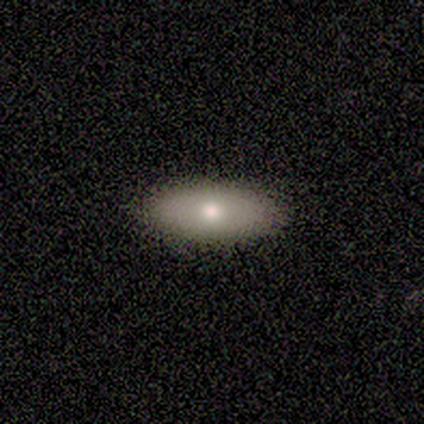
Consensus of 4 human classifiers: A smooth galaxy with no disk features (50%, tied with featured or disk) that is in between round and cigar-shaped (100%).

Vote fractions:
- Smooth or featured? smooth: 50% (tied) / featured or disk: 50% (tied) / star or artifact: 0%
- How rounded? in between: 100% / round: 0% / cigar-shaped: 0%
- Merging? none: 100% / minor disturbance: 0% / major disturbance: 0% / merger: 0%